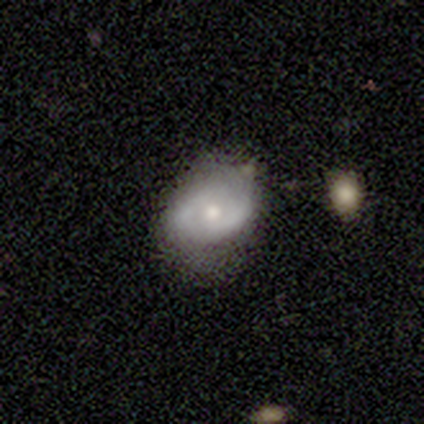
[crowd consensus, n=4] Overall: featured or disk (75%). Edge-on disk: no (100%). Bar: no (67%; weak 33%). Spiral arms: no (100%). Bulge size: small (100%). Merging: none (50%; minor disturbance 25%).